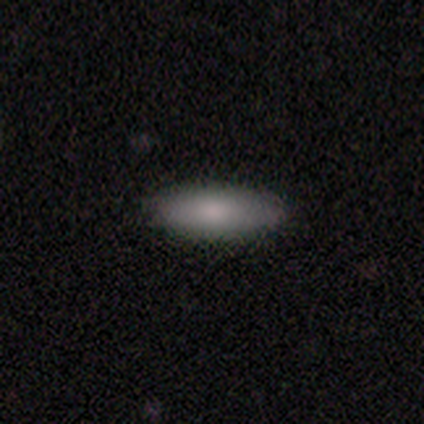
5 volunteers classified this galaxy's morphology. smooth 60%, featured or disk 20%, star or artifact 20%. Down the decision tree: how rounded — in between (100%); merging — none (100%).